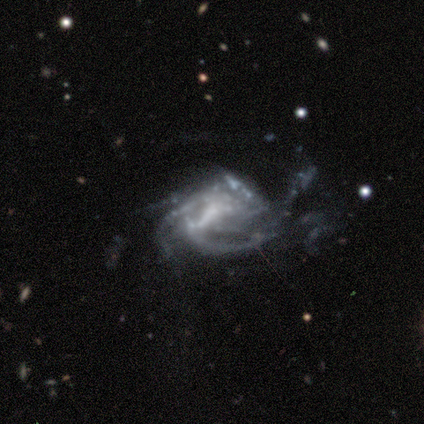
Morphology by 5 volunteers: Smooth or featured: featured or disk — 100%
Edge-on disk: no — 100%
Bar: weak — 60% (no — 40%)
Spiral arms: yes — 80% (no — 20%)
Spiral winding: medium — 75% (tight — 25%)
Spiral arm count: 4 — 50% (2 — 25%)
Bulge size: none — 80% (dominant — 20%)
Merging: major disturbance — 40% (none — 20%)